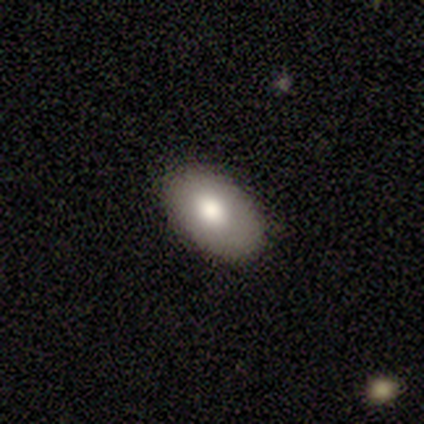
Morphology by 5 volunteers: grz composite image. It shows a smooth galaxy with no disk features (60%) that is in between round and cigar-shaped (100%). Merging: none (100%).